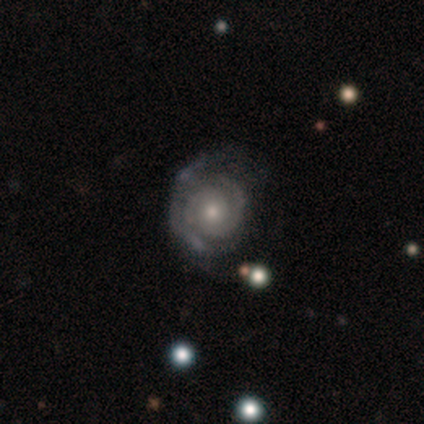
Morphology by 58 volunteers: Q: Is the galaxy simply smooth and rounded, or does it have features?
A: featured or disk — 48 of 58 (83%).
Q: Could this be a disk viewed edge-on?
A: no — 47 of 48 (98%).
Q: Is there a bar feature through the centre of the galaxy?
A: no — 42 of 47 (89%).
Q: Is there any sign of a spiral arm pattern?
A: yes — 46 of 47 (98%).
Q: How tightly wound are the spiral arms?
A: tight — 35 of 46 (76%).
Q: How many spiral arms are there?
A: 2 — 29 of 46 (63%).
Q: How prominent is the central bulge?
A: moderate — 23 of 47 (49%).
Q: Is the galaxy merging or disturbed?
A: none — 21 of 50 (42%).